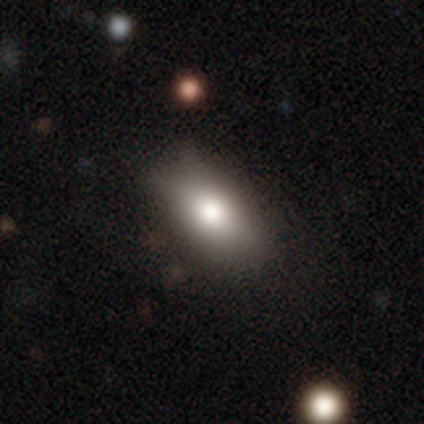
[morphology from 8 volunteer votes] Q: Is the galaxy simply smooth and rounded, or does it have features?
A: smooth — 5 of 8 (62%).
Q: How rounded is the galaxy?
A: in between — 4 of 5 (80%).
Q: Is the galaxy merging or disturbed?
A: none — 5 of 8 (62%).